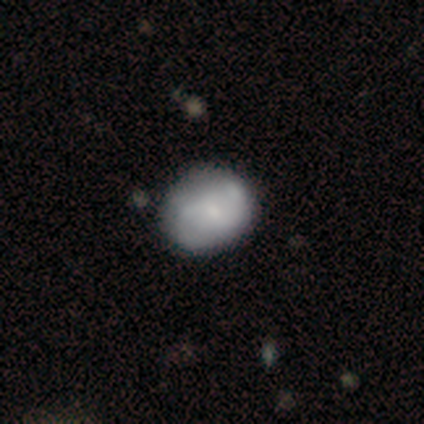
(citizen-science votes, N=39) A featured or disk galaxy (51%) with no bar (70%), 2 (87%) medium (60%) spiral arms (75%) and a small central bulge (55%). Merging: none (46%).